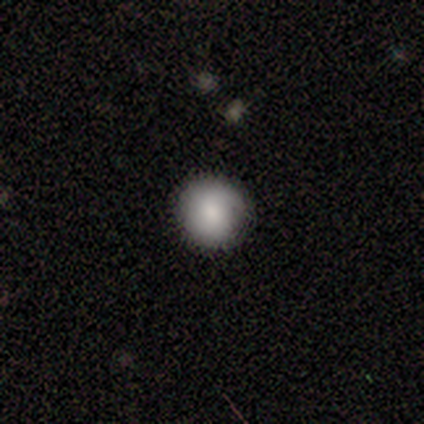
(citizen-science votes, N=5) A smooth galaxy with no disk features (60%) that is round (100%). Merging: none (100%).